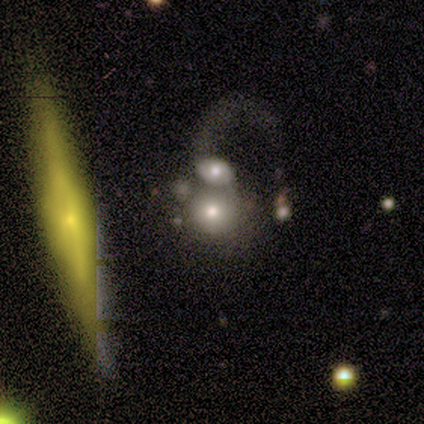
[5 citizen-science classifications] Q: Smooth or featured?
A: smooth (60%); runner-up: featured or disk (40%)
Q: How rounded?
A: round (67%); runner-up: in between (33%)
Q: Merging?
A: merger (60%); runner-up: minor disturbance (20%)